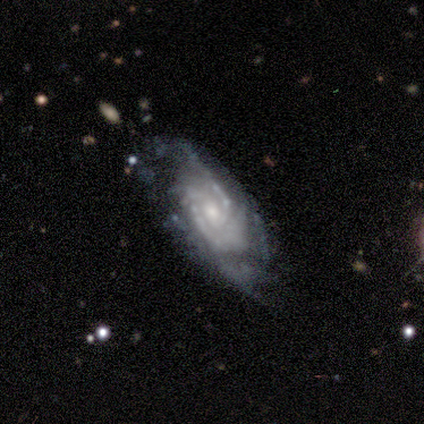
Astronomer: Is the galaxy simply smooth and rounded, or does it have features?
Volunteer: featured or disk — 80%.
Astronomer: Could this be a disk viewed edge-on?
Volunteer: no — 100%.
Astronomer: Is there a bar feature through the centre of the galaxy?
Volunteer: no — 100%.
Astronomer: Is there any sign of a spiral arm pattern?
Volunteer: yes — 100%.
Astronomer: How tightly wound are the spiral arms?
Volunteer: tight — 62%.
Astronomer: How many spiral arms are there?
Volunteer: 2 — 38%, tied with 3 at 38%.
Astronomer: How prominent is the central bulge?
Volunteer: small — 75%.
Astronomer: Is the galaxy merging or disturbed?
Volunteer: none — 56% (runner-up: minor disturbance, 33%).